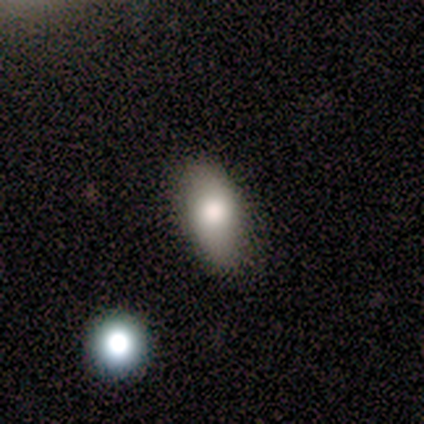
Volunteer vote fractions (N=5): A smooth galaxy with no disk features (80%) that is in between round and cigar-shaped (75%). Merging: none (60%).